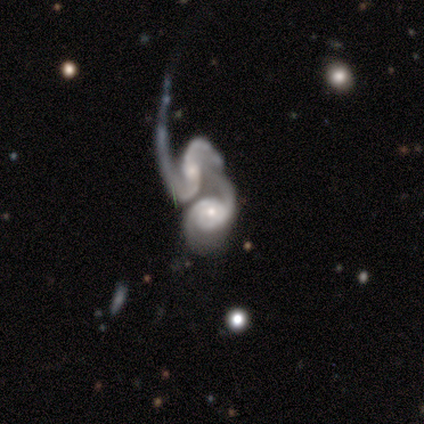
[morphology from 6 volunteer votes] smooth-or-featured: featured or disk: 100% | smooth: 0% | star or artifact: 0%
  disk-edge-on: no: 100% | yes: 0%
    bar: weak: 50% (tied) | no: 50% (tied) | strong: 0%
    has-spiral-arms: yes: 100% | no: 0%
      spiral-winding: tight: 33% (tied) | medium: 33% (tied) | loose: 33% (tied)
      spiral-arm-count: 2: 100% | 1: 0% | 3: 0% | 4: 0% | more than 4: 0% | can't tell: 0%
    bulge-size: small: 50% | large: 17% | moderate: 17% | none: 17% | dominant: 0%
  merging: merger: 100% | none: 0% | minor disturbance: 0% | major disturbance: 0%